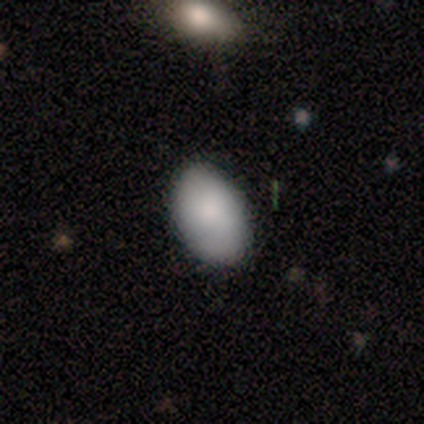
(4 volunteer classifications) smooth 100%, featured or disk 0%, star or artifact 0%. Down the decision tree: how rounded — in between (75%); merging — none (75%).